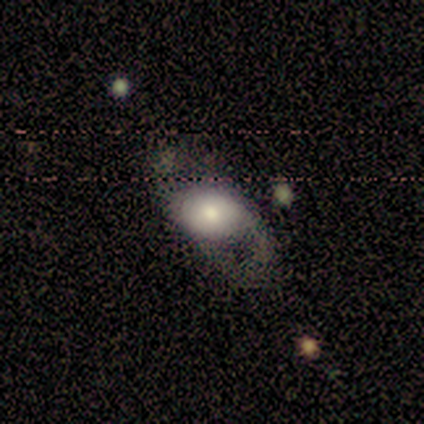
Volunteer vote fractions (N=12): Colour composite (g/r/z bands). It shows a featured or disk galaxy (50%) with no bar (67%), 2 (50%) loose (100%) spiral arms (100%) and a dominant central bulge (33%, tied with moderate and small). Merging: none (45%).